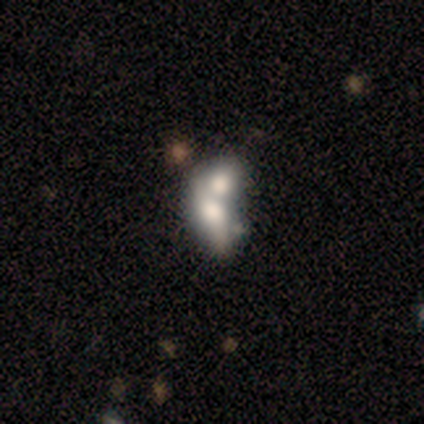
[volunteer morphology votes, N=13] Smooth or featured? 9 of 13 (69%) said smooth. How rounded? 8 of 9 (89%) said in between. Merging? 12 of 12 (100%) said merger.